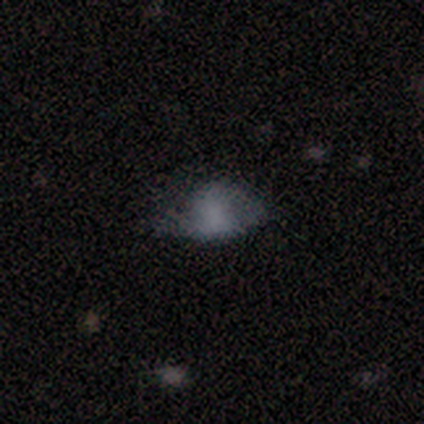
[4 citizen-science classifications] This is likely a smooth galaxy (75%). How rounded: clearly in between (100%). Merging: likely none (75%).